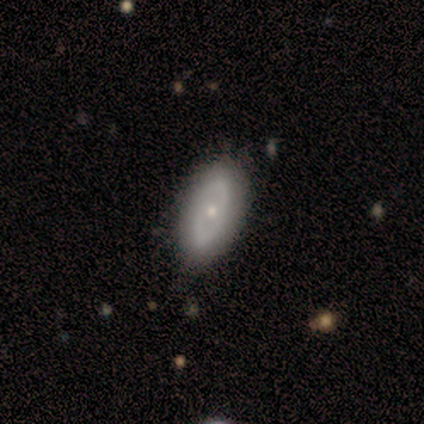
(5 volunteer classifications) smooth_or_featured: featured or disk (p=1.00)
disk_edge_on: no (p=1.00)
bar: no (p=0.60) [alt: strong p=0.20]
has_spiral_arms: yes (p=0.60) [alt: no p=0.40]
spiral_winding: tight (p=0.33) [tied with: medium p=0.33, loose p=0.33]
spiral_arm_count: 1 (p=0.33) [tied with: 2 p=0.33, 3 p=0.33]
bulge_size: small (p=0.80) [alt: moderate p=0.20]
merging: none (p=0.80) [alt: minor disturbance p=0.20]